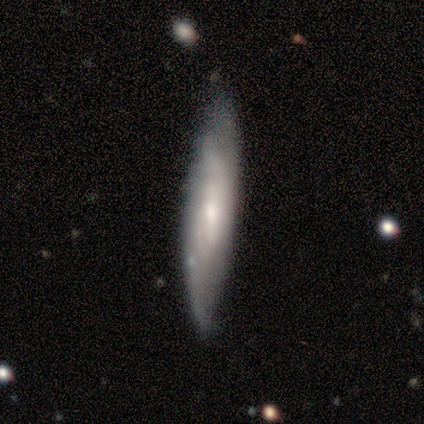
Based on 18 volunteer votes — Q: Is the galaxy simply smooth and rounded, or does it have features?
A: featured or disk — 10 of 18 (56%).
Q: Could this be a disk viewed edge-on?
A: no — 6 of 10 (60%).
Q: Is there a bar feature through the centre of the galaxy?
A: no — 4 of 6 (67%).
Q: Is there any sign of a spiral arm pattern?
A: yes — 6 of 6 (100%).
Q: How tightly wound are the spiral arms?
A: tight — 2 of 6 (33%, tied with medium and loose).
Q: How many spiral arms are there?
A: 2 — 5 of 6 (83%).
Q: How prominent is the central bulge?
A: small — 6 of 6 (100%).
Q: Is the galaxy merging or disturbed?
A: none — 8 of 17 (47%).